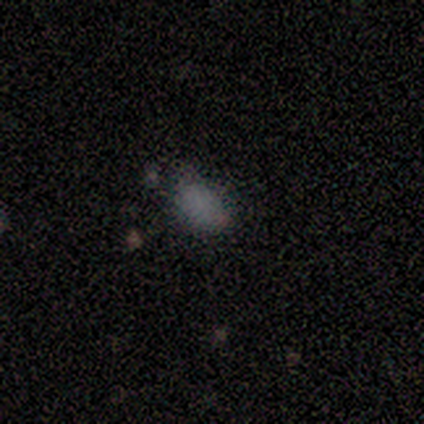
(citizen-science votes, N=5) Volunteers were most divided on "merging": minor disturbance: 75%, none: 25%, major disturbance: 0%, merger: 0%. More confident: how rounded — in between (100%); smooth or featured — smooth (80%).